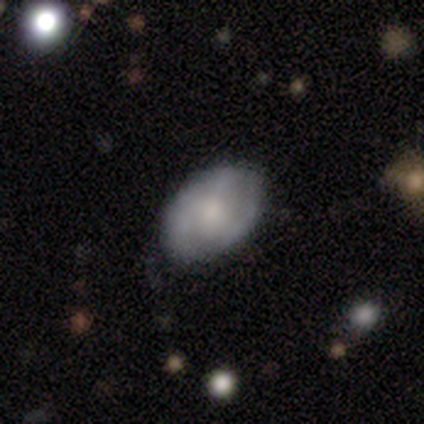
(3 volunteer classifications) Smooth or featured? featured or disk (67%)
Edge-on disk? no (100%)
Bar? weak (50%, tied with no)
Spiral arms? yes (100%)
Spiral winding? medium (50%, tied with loose)
Spiral arm count? 2 (50%, tied with can't tell)
Bulge size? moderate (100%)
Merging? none (67%)